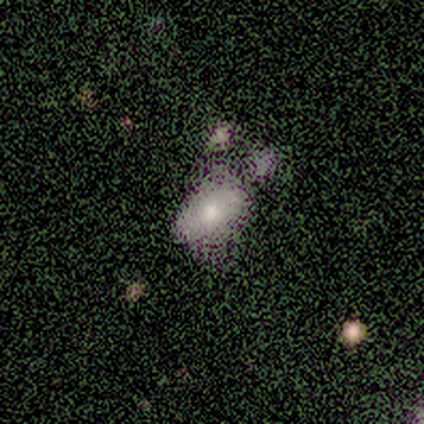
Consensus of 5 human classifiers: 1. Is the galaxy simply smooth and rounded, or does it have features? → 60% smooth, 40% featured or disk, 0% star or artifact.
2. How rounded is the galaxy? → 100% in between, 0% round, 0% cigar-shaped.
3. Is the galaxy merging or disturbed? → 60% minor disturbance, 40% none, 0% major disturbance, 0% merger.